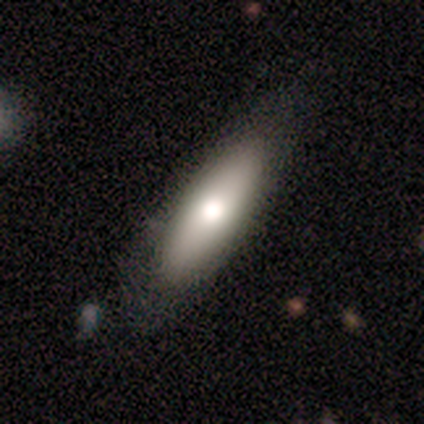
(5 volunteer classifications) Smooth or featured? smooth (60%)
How rounded? in between (100%)
Merging? none (60%)